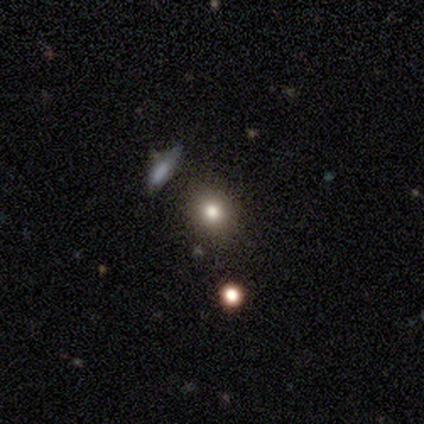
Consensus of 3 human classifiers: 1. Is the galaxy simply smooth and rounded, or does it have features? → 67% smooth, 33% star or artifact, 0% featured or disk.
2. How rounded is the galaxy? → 50% round (tied), 50% in between (tied), 0% cigar-shaped.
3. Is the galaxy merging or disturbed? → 50% none (tied), 50% minor disturbance (tied), 0% major disturbance, 0% merger.